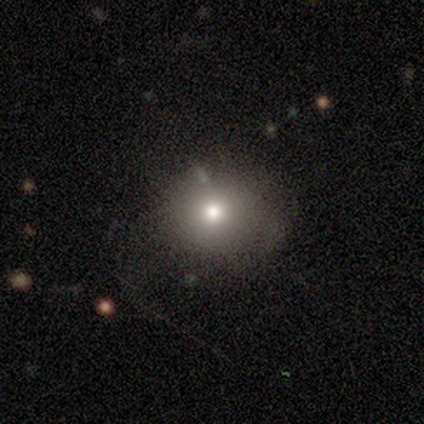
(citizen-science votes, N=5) A smooth galaxy with no disk features (80%) that is round (50%, tied with in between). Merging: none (60%).